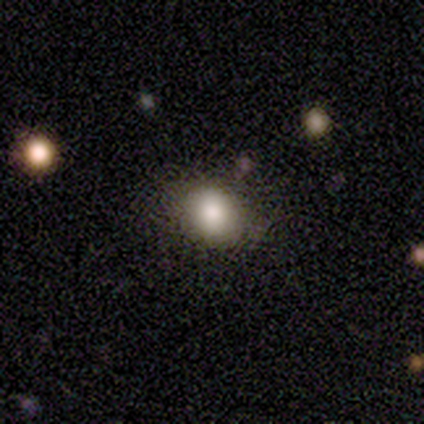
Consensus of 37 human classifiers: Smooth or featured: smooth — 86% (star or artifact — 11%)
How rounded: round — 56% (in between — 44%)
Merging: none — 76% (minor disturbance — 21%)